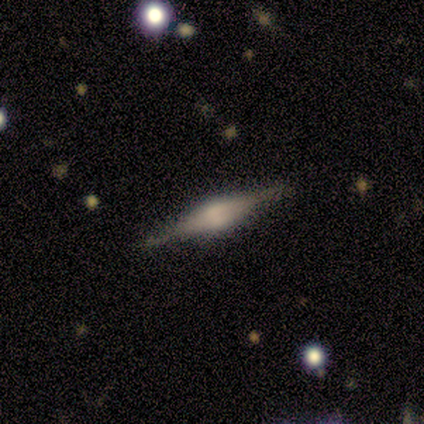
smooth-or-featured: featured or disk: 80% | smooth: 15% | star or artifact: 5%
  disk-edge-on: yes: 100% | no: 0%
    edge-on-bulge: rounded: 72% | boxy: 28% | none: 0%
  merging: none: 79% | minor disturbance: 16% | major disturbance: 3% | merger: 3%